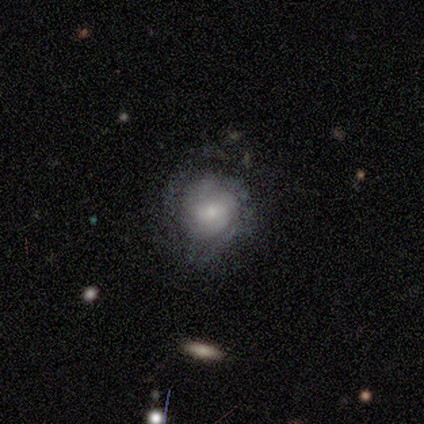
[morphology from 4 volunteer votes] Overall: featured or disk (100%). Edge-on disk: no (100%). Bar: no (75%). Spiral arms: yes (100%). Spiral arm count: 2 (50%, tied with can't tell). Spiral winding: tight (100%). Bulge size: moderate (100%). Merging: none (75%).